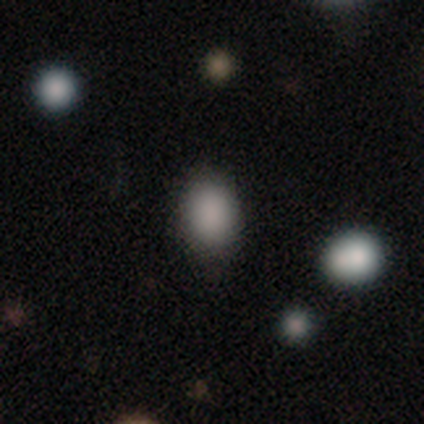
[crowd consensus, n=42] smooth-or-featured: smooth: 88% | star or artifact: 10% | featured or disk: 2%
  how-rounded: in between: 70% | round: 30% | cigar-shaped: 0%
  merging: none: 84% | minor disturbance: 13% | major disturbance: 3% | merger: 0%